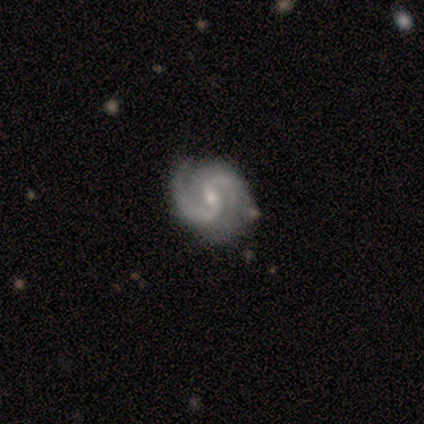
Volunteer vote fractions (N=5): This appears to be a featured or disk galaxy (100%) with a weak bar (100%), 2 (80%) tight (60%) spiral arms (100%) and a small central bulge (80%). Merging: none (80%).